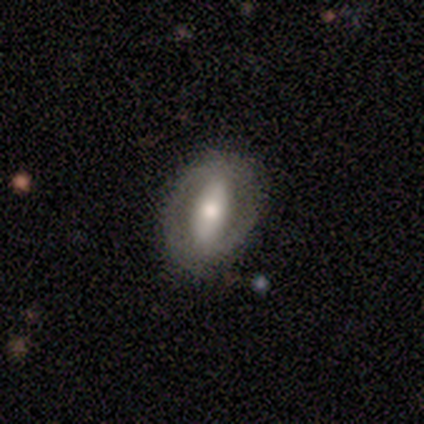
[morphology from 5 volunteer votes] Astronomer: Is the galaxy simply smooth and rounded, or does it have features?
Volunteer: featured or disk — 80%.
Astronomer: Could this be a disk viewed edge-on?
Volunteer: no — 100%.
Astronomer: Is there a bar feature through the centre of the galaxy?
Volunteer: strong — 50%.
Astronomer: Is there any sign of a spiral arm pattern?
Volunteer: yes — 50%, tied with no at 50%.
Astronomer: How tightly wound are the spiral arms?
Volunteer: tight — 50%, tied with medium at 50%.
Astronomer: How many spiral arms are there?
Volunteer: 2 — 100%.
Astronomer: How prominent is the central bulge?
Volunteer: moderate — 50%.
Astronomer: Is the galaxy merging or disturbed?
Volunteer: none — 80%.